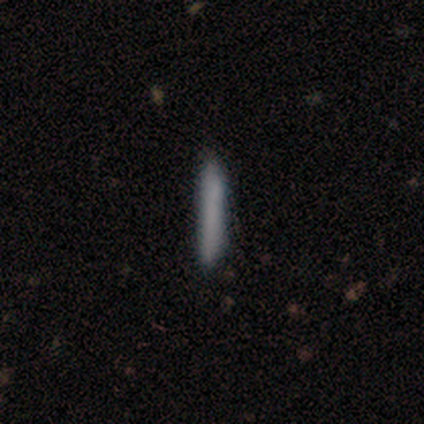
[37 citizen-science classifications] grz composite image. It shows a smooth galaxy with no disk features (76%) that is cigar-shaped (100%). Merging: none (91%).